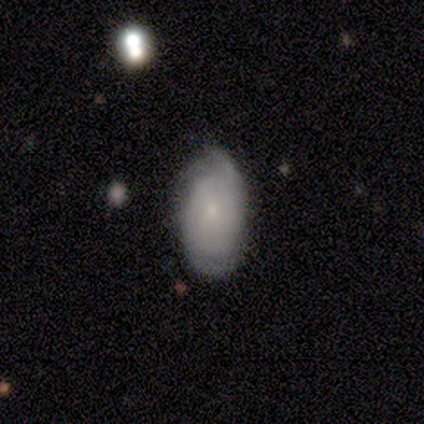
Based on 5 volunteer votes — Overall: featured or disk (80%). Edge-on disk: no (100%). Bar: no (75%). Spiral arms: yes (100%). Spiral arm count: can't tell (75%). Spiral winding: tight (75%). Bulge size: small (100%). Merging: none (80%).